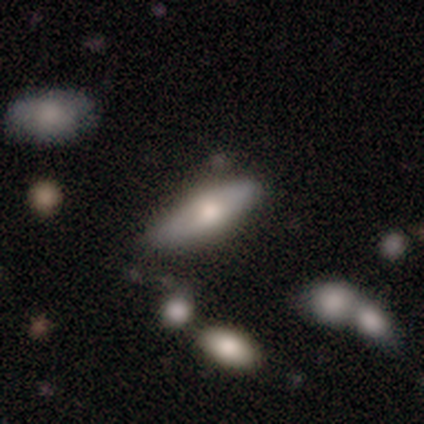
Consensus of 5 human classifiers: Smooth or featured: smooth — 60% (star or artifact — 40%)
How rounded: in between — 67% (cigar-shaped — 33%)
Merging: minor disturbance — 67% (none — 33%)